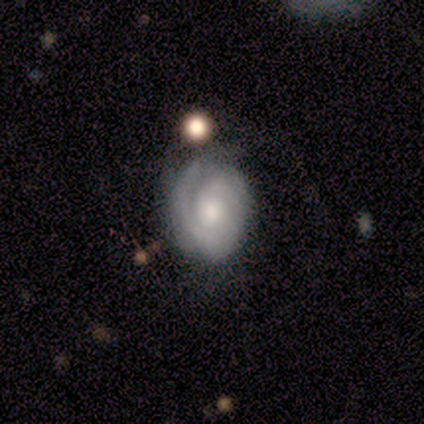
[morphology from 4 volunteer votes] This is clearly a featured or disk galaxy (100%). It is clearly not viewed edge-on (100%). Bar: clearly no (100%). Spiral arm pattern: clearly yes (100%). Spiral arm count: possibly can't tell (50%). Spiral winding: likely tight (75%). Central bulge: likely moderate (75%). Merging: possibly none (50%).